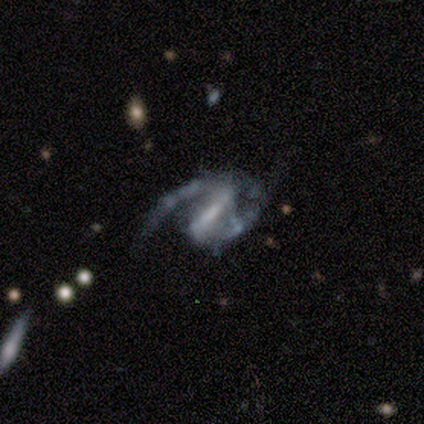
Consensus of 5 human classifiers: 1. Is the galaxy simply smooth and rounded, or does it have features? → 100% featured or disk, 0% smooth, 0% star or artifact.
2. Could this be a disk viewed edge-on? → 100% no, 0% yes.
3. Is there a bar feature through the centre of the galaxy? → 60% strong, 20% weak, 20% no.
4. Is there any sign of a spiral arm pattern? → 80% yes, 20% no.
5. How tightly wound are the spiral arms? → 50% medium (tied), 50% loose (tied), 0% tight.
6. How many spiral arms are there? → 100% 2, 0% 1, 0% 3, 0% 4, 0% more than 4, 0% can't tell.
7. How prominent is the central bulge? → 40% small (tied), 40% none (tied), 20% moderate, 0% dominant, 0% large.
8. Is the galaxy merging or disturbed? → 80% major disturbance, 20% none, 0% minor disturbance, 0% merger.